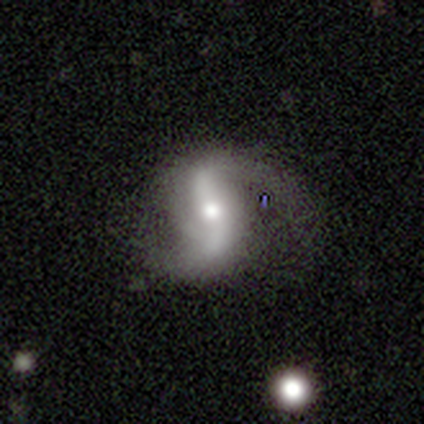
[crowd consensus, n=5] Overall: featured or disk (80%). Edge-on disk: no (100%). Bar: strong (75%). Spiral arms: yes (100%). Spiral arm count: 2 (75%). Spiral winding: loose (75%). Bulge size: moderate (50%, tied with small). Merging: none (100%).